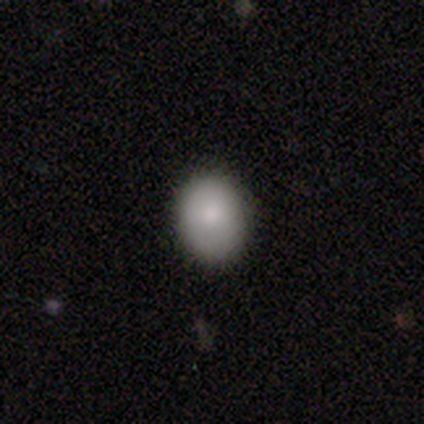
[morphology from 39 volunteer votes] This appears to be a smooth galaxy with no disk features (92%) that is in between round and cigar-shaped (61%). Merging: none (89%).